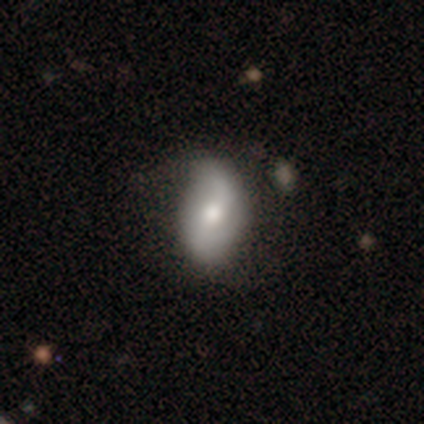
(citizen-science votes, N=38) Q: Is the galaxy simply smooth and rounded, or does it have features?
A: featured or disk — 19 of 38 (50%).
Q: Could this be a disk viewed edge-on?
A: no — 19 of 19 (100%).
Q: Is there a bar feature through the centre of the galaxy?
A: weak — 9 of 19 (47%).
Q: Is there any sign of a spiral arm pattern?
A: yes — 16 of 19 (84%).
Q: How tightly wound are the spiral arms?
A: loose — 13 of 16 (81%).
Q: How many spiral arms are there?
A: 2 — 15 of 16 (94%).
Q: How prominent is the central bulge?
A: moderate — 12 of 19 (63%).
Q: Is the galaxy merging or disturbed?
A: none — 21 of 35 (60%).